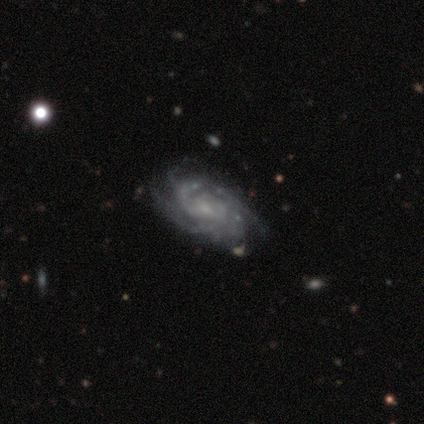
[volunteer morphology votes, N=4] Q: Smooth or featured?
A: featured or disk (75%); runner-up: star or artifact (25%)
Q: Edge-on disk?
A: no (100%)
Q: Bar?
A: no (67%); runner-up: weak (33%)
Q: Spiral arms?
A: yes (100%)
Q: Spiral winding?
A: tight (33%); tied with: medium (33%); loose (33%)
Q: Spiral arm count?
A: can't tell (67%); runner-up: 4 (33%)
Q: Bulge size?
A: small (100%)
Q: Merging?
A: none (100%)